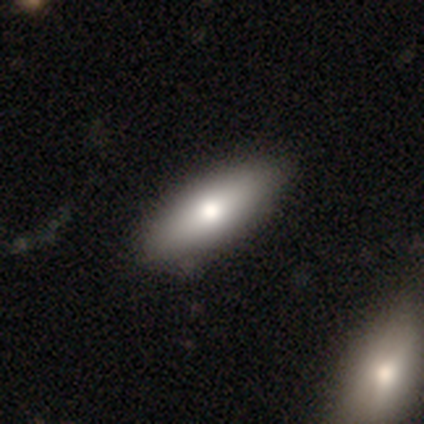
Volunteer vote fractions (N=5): smooth-or-featured: smooth: 60% | featured or disk: 40% | star or artifact: 0%
  how-rounded: in between: 100% | round: 0% | cigar-shaped: 0%
  merging: none: 100% | minor disturbance: 0% | major disturbance: 0% | merger: 0%